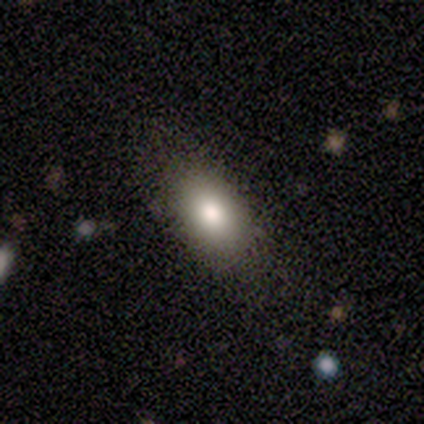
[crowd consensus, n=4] Smooth or featured? 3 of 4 (75%) said smooth. How rounded? 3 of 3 (100%) said in between. Merging? 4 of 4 (100%) said none.